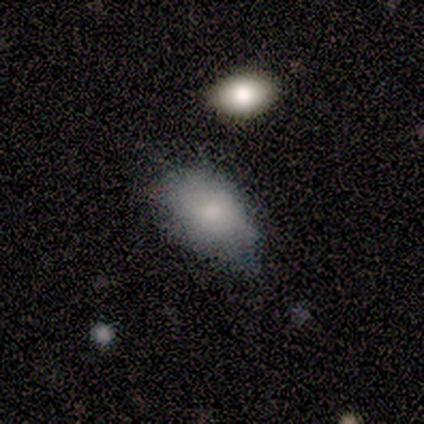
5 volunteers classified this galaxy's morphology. Overall: smooth (100%). How rounded: in between (100%). Merging: none (60%; minor disturbance 40%).